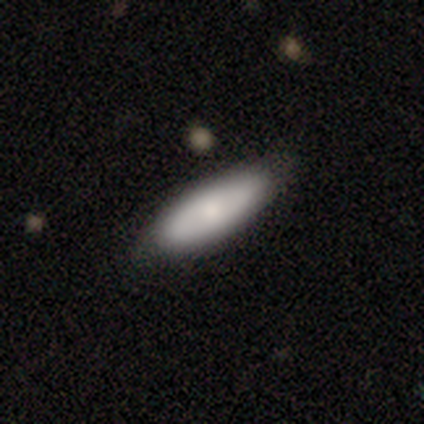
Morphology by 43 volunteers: Q: Smooth or featured?
A: smooth (72%); runner-up: featured or disk (23%)
Q: How rounded?
A: in between (61%); runner-up: cigar-shaped (39%)
Q: Merging?
A: none (90%); runner-up: minor disturbance (10%)